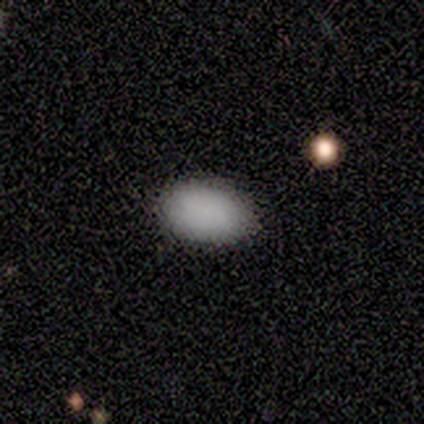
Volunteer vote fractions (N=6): Volunteers were most divided on "merging": none: 67%, minor disturbance: 33%, major disturbance: 0%, merger: 0%. More confident: smooth or featured — smooth (100%); how rounded — in between (100%).